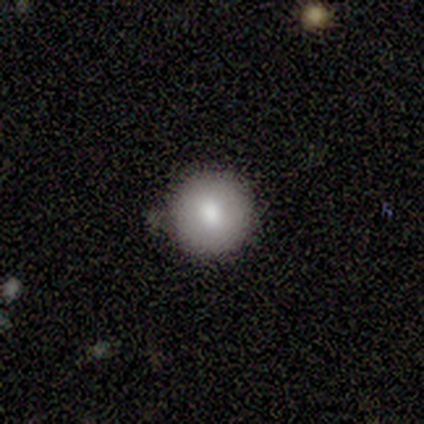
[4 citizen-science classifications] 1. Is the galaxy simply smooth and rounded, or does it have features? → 100% smooth, 0% featured or disk, 0% star or artifact.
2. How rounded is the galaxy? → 100% round, 0% in between, 0% cigar-shaped.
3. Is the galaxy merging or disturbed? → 100% none, 0% minor disturbance, 0% major disturbance, 0% merger.